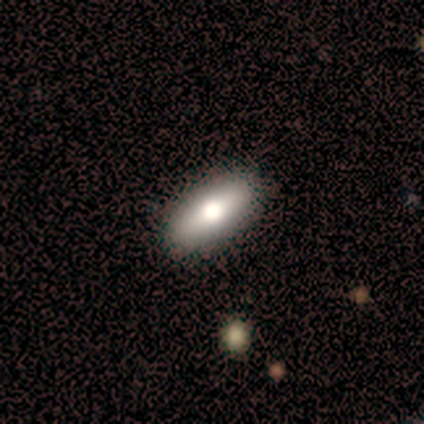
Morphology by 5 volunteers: Smooth or featured? 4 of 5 (80%) said smooth. How rounded? 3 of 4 (75%) said in between. Merging? 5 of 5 (100%) said none.